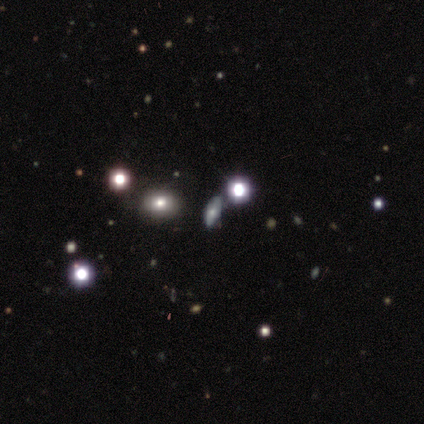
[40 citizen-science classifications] Smooth or featured? 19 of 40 (48%) said smooth. How rounded? 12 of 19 (63%) said in between. Merging? 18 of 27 (67%) said none.